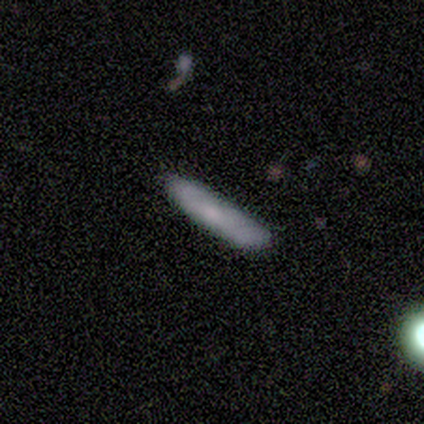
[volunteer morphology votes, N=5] smooth_or_featured: smooth (p=1.00)
how_rounded: cigar-shaped (p=1.00)
merging: none (p=0.80) [alt: minor disturbance p=0.20]